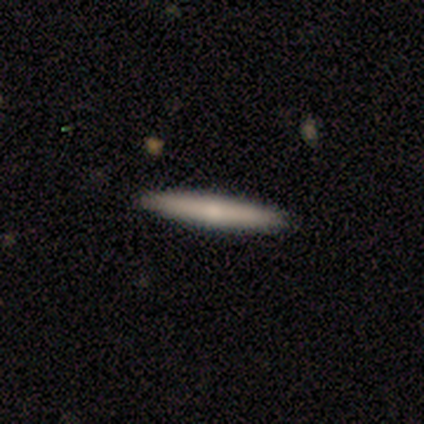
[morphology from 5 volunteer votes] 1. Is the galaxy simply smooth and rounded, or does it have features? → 80% smooth, 20% featured or disk, 0% star or artifact.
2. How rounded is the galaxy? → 100% cigar-shaped, 0% round, 0% in between.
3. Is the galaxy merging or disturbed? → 100% none, 0% minor disturbance, 0% major disturbance, 0% merger.